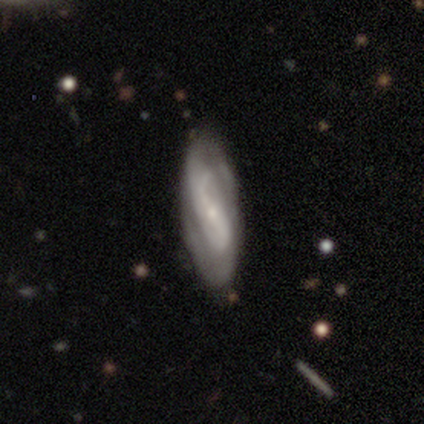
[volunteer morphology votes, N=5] Smooth or featured? featured or disk (100%)
Edge-on disk? no (80%)
Bar? strong (50%, tied with weak)
Spiral arms? yes (50%, tied with no)
Spiral winding? tight (50%, tied with loose)
Spiral arm count? 2 (100%)
Bulge size? small (75%)
Merging? none (60%)